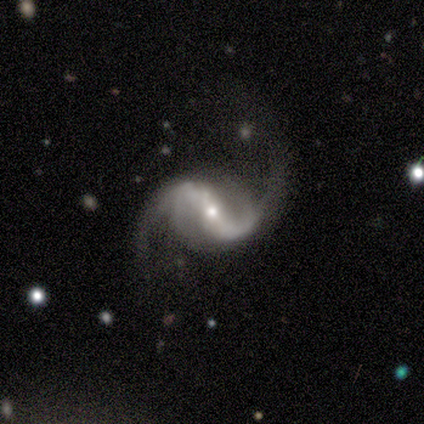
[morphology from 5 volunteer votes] Q: Smooth or featured?
A: featured or disk (100%)
Q: Edge-on disk?
A: no (100%)
Q: Bar?
A: strong (40%); tied with: weak (40%)
Q: Spiral arms?
A: yes (100%)
Q: Spiral winding?
A: loose (80%); runner-up: tight (20%)
Q: Spiral arm count?
A: 2 (80%); runner-up: 4 (20%)
Q: Bulge size?
A: small (80%); runner-up: moderate (20%)
Q: Merging?
A: none (60%); runner-up: minor disturbance (20%)